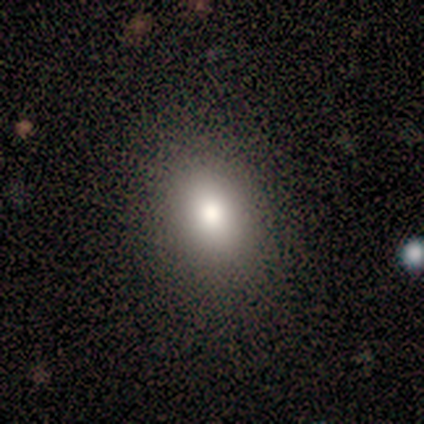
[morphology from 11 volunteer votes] Overall: smooth (82%). How rounded: in between (78%). Merging: none (100%).